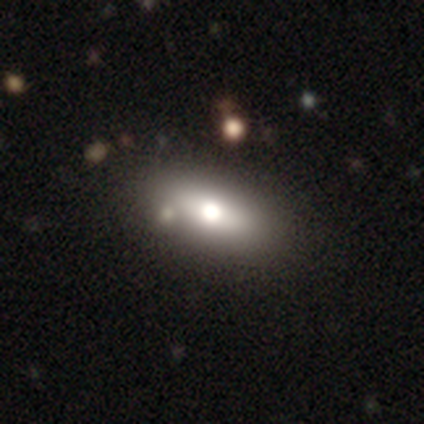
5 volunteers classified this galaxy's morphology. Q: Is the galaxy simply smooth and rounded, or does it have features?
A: smooth — 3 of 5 (60%).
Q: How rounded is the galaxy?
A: in between — 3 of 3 (100%).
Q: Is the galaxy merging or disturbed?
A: none — 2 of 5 (40%, tied with minor disturbance).